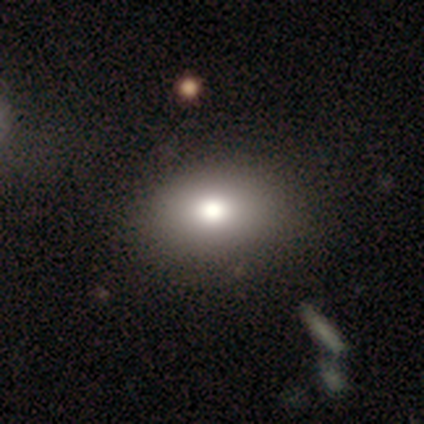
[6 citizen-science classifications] A smooth galaxy with no disk features (83%) that is in between round and cigar-shaped (80%). Merging: none (50%).